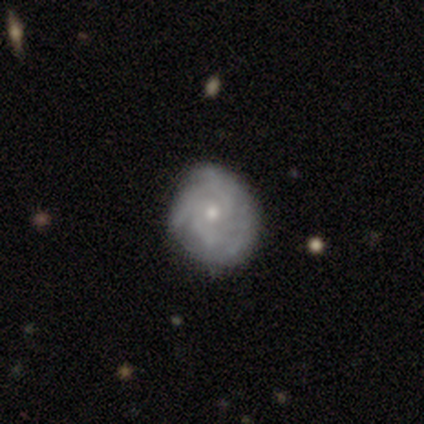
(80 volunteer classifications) This appears to be a featured or disk galaxy (85%) with no bar (93%), tight (52%) spiral arms (93%) and a small central bulge (61%). Merging: none (42%).